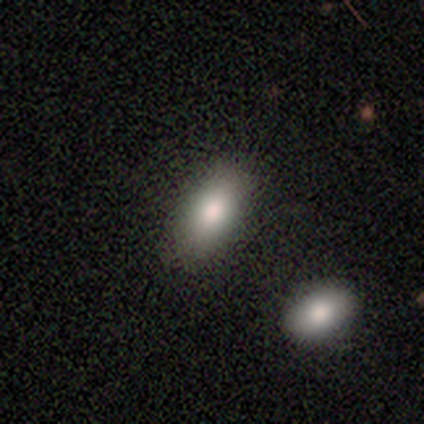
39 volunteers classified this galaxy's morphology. type=smooth (90%); roundness=in between (100%); merging=none (62%).